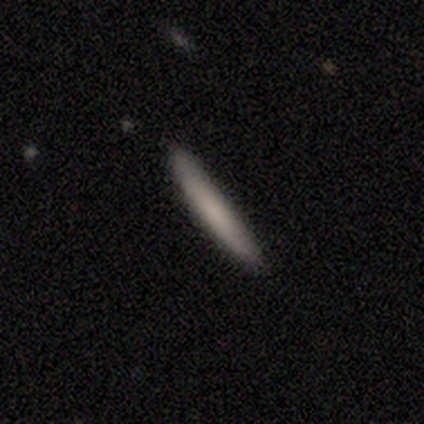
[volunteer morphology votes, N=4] Smooth or featured? 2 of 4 (50%, tied with featured or disk) said smooth. How rounded? 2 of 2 (100%) said cigar-shaped. Merging? 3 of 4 (75%) said none.